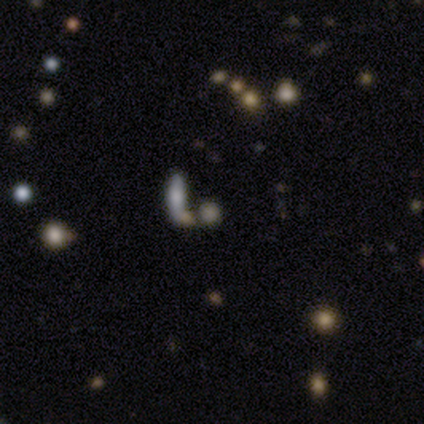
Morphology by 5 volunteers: A smooth galaxy with no disk features (60%) that is cigar-shaped (100%). Merging: none (33%, tied with minor disturbance and major disturbance).